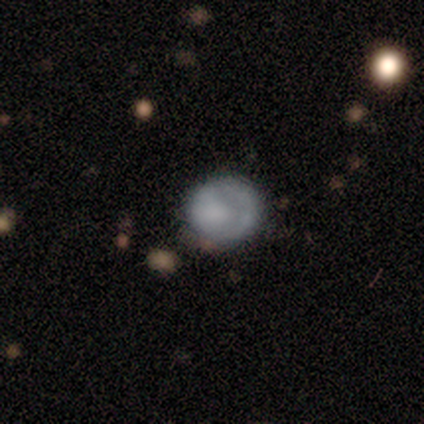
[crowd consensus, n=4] A smooth galaxy with no disk features (50%) that is round (100%).

Vote fractions:
- Smooth or featured? smooth: 50% / featured or disk: 25% / star or artifact: 25%
- How rounded? round: 100% / in between: 0% / cigar-shaped: 0%
- Merging? major disturbance: 67% / minor disturbance: 33% / none: 0% / merger: 0%